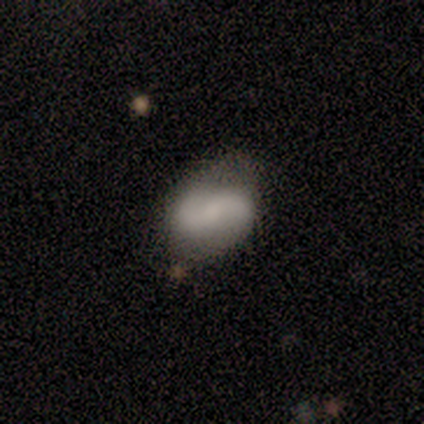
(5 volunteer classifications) This appears to be a featured or disk galaxy (40%, tied with star or artifact) with no bar (100%), 2 (100%) medium (50%, tied with loose) spiral arms (100%) and a moderate central bulge (100%). Merging: none (33%, tied with minor disturbance and major disturbance).